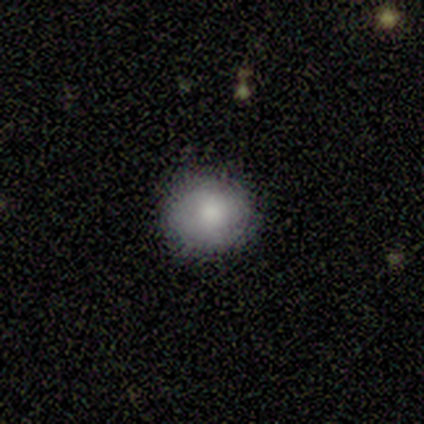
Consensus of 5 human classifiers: smooth 60%, featured or disk 40%, star or artifact 0%. Down the decision tree: how rounded — round (67%); merging — none (100%).